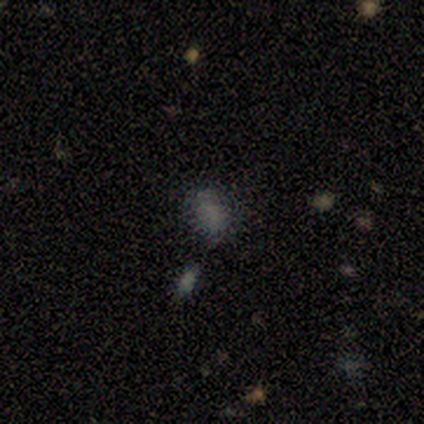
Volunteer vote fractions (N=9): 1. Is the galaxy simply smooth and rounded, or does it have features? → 56% smooth, 33% star or artifact, 11% featured or disk.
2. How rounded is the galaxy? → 80% in between, 20% round, 0% cigar-shaped.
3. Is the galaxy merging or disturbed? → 33% none (tied), 33% minor disturbance (tied), 17% major disturbance, 17% merger.